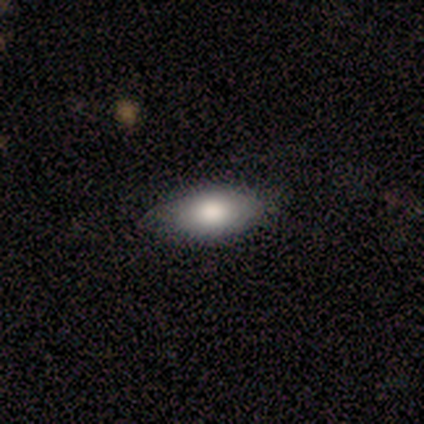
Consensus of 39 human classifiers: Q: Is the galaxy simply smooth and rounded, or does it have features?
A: smooth — 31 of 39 (79%).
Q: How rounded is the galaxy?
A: in between — 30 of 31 (97%).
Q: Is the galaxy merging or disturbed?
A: none — 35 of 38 (92%).